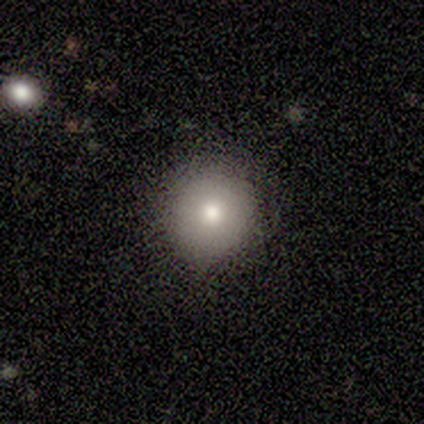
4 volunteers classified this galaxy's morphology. smooth 75%, featured or disk 25%, star or artifact 0%. Down the decision tree: how rounded — round (100%); merging — minor disturbance (75%).